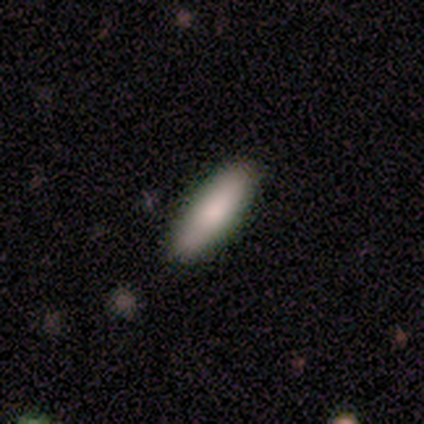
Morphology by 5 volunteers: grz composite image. It shows a smooth galaxy with no disk features (60%) that is cigar-shaped (67%). Merging: none (100%).